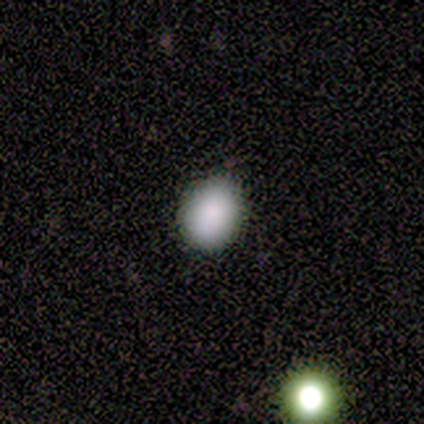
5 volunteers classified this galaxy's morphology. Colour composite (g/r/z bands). It shows a smooth galaxy with no disk features (80%) that is round (75%). Merging: none (100%).